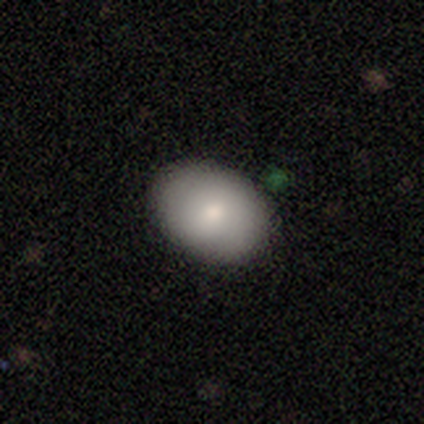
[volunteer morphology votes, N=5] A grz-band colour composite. It shows a smooth galaxy with no disk features (80%) that is in between round and cigar-shaped (100%). Merging: none (100%).